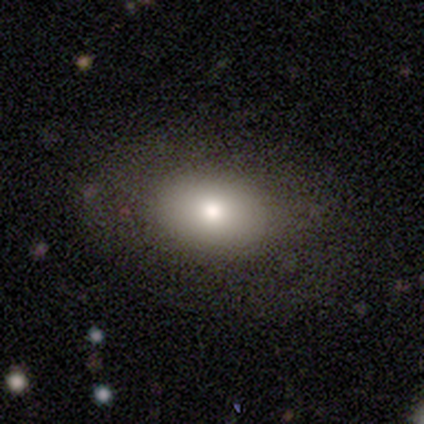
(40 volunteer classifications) Smooth or featured? 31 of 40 (78%) said smooth. How rounded? 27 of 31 (87%) said in between. Merging? 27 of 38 (71%) said none.